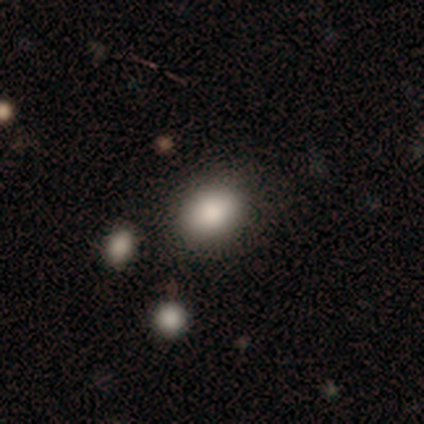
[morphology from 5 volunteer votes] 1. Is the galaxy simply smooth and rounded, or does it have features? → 100% smooth, 0% featured or disk, 0% star or artifact.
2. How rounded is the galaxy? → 80% in between, 20% round, 0% cigar-shaped.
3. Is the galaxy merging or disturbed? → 40% none (tied), 40% major disturbance (tied), 20% minor disturbance, 0% merger.